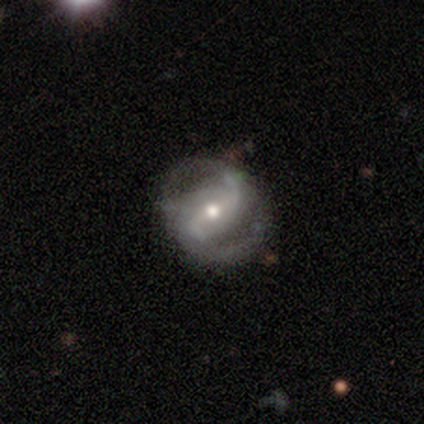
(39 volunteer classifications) Smooth or featured? featured or disk (90%)
Edge-on disk? no (100%)
Bar? strong (57%)
Spiral arms? yes (94%)
Spiral winding? medium (58%)
Spiral arm count? 2 (88%)
Bulge size? moderate (63%)
Merging? none (68%)